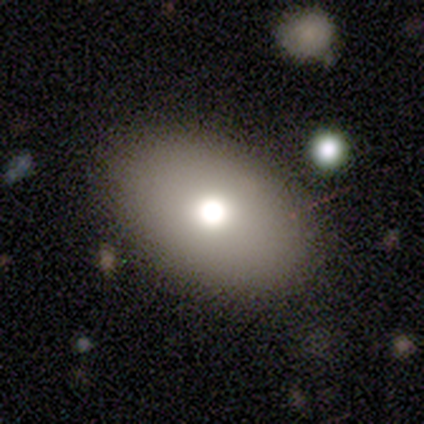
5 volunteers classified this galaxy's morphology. type=smooth (80%); roundness=round (50%, tied with in between); merging=none (80%).